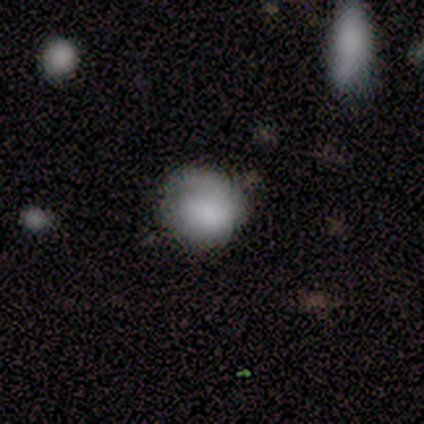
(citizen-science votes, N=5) This appears to be a smooth galaxy with no disk features (100%) that is round (80%). Merging: none (80%).